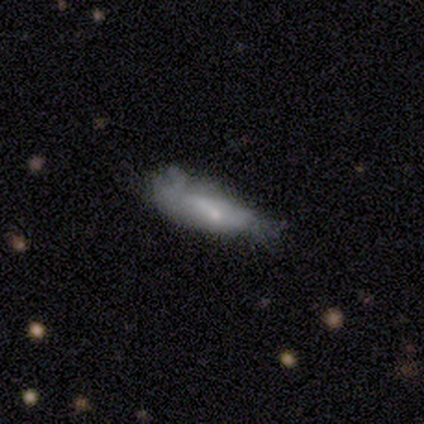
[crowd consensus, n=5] A smooth galaxy with no disk features (60%) that is in between round and cigar-shaped (67%).

Vote fractions:
- Smooth or featured? smooth: 60% / featured or disk: 40% / star or artifact: 0%
- How rounded? in between: 67% / cigar-shaped: 33% / round: 0%
- Merging? major disturbance: 60% / minor disturbance: 40% / none: 0% / merger: 0%